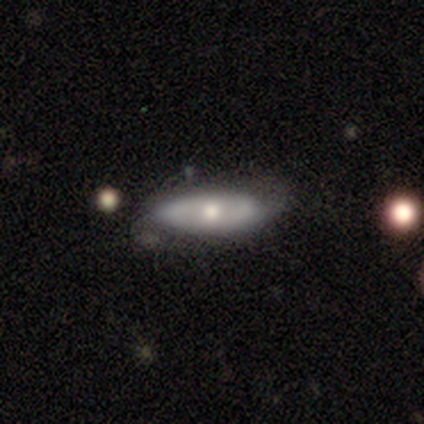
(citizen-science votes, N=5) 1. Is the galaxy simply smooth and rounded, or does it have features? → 40% smooth (tied), 40% featured or disk (tied), 20% star or artifact.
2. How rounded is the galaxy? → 50% in between (tied), 50% cigar-shaped (tied), 0% round.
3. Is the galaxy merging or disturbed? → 50% none, 25% minor disturbance, 25% major disturbance, 0% merger.